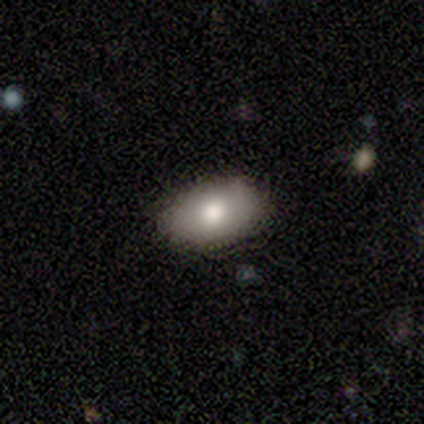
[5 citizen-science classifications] This is clearly a smooth galaxy (100%). How rounded: clearly in between (80%). Merging: clearly none (80%).